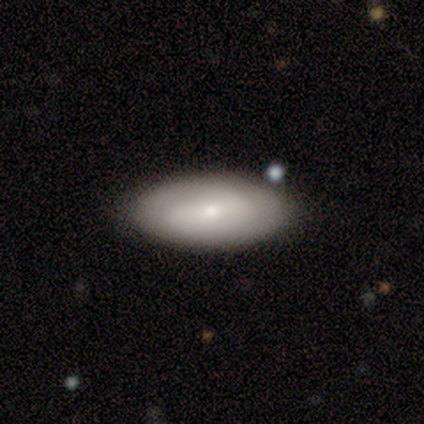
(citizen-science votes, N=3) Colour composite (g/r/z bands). It shows a smooth galaxy with no disk features (33%, tied with featured or disk and star or artifact) that is in between round and cigar-shaped (100%). Merging: none (100%).